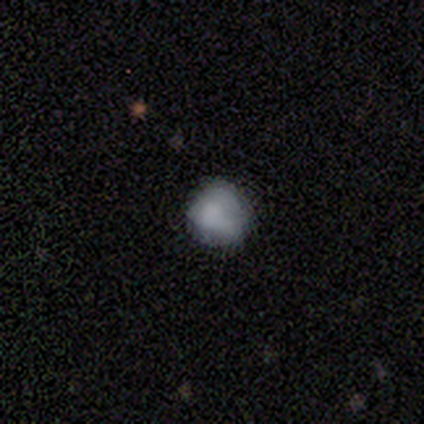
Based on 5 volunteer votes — Morphology: type=smooth (60%); roundness=round (100%); merging=none (100%).